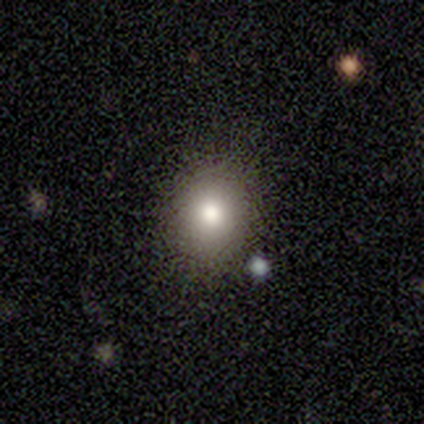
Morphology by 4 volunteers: This appears to be a smooth galaxy with no disk features (50%) that is round (50%, tied with in between). Merging: none (100%).